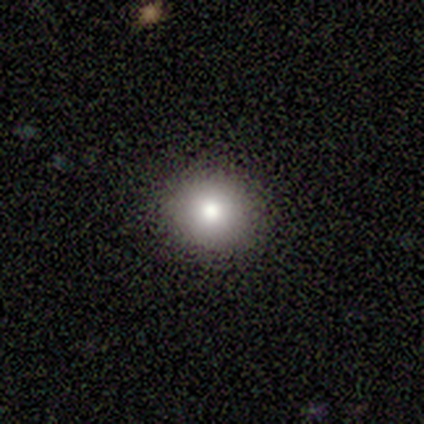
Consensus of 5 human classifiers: Morphology: type=smooth (60%); roundness=round (100%); merging=none (75%).